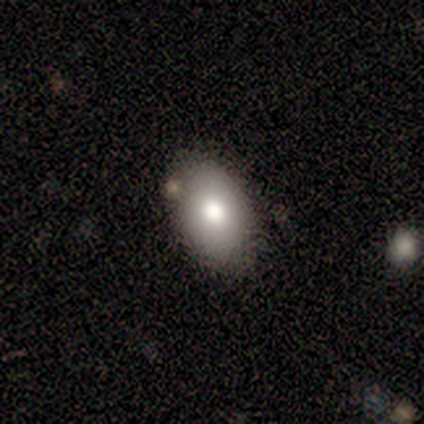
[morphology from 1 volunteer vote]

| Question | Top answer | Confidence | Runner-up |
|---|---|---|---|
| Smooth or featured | smooth | 100% | — |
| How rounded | in between | 100% | — |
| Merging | none | 100% | — |